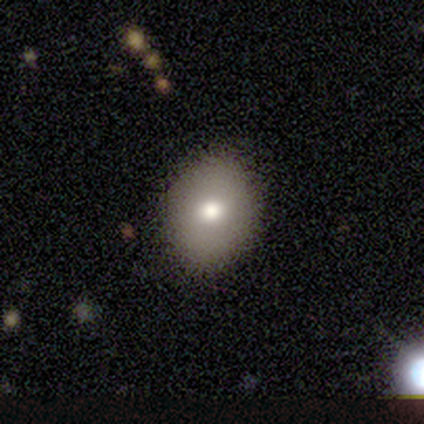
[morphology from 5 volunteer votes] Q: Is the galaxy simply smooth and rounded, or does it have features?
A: smooth — 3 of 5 (60%).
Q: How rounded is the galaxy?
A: round — 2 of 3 (67%).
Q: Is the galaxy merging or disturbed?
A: none — 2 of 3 (67%).